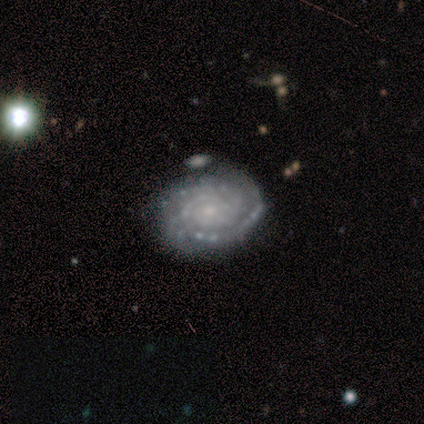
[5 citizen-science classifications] smooth-or-featured: featured or disk: 100% | smooth: 0% | star or artifact: 0%
  disk-edge-on: no: 100% | yes: 0%
    bar: no: 80% | weak: 20% | strong: 0%
    has-spiral-arms: yes: 100% | no: 0%
      spiral-winding: tight: 80% | medium: 20% | loose: 0%
      spiral-arm-count: 2: 80% | 3: 20% | 1: 0% | 4: 0% | more than 4: 0% | can't tell: 0%
    bulge-size: small: 80% | moderate: 20% | dominant: 0% | large: 0% | none: 0%
  merging: none: 60% | minor disturbance: 20% | merger: 20% | major disturbance: 0%